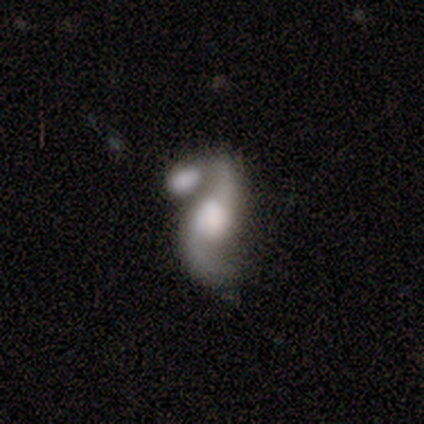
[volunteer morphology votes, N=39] featured or disk 87%, smooth 10%, star or artifact 3%. Down the decision tree: edge-on disk — no (100%); bar — no (68%); spiral arms — yes (97%); spiral arm count — 2 (97%); spiral winding — loose (85%); bulge size — large (74%); merging — merger (61%).